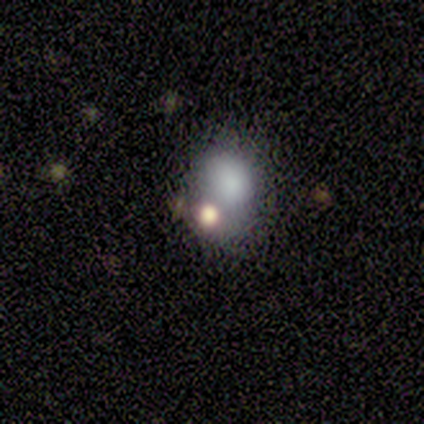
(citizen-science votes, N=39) A smooth galaxy with no disk features (69%) that is in between round and cigar-shaped (56%).

Vote fractions:
- Smooth or featured? smooth: 69% / featured or disk: 21% / star or artifact: 10%
- How rounded? in between: 56% / round: 44% / cigar-shaped: 0%
- Merging? merger: 37% / none: 31% / major disturbance: 17% / minor disturbance: 14%